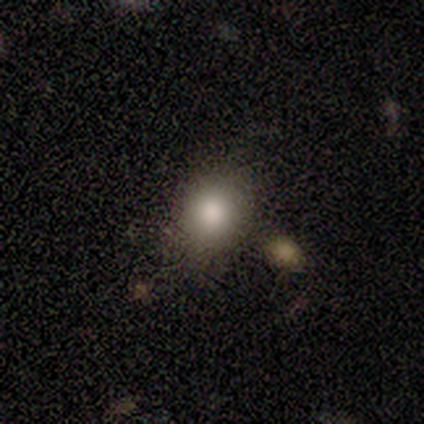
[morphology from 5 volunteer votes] Volunteers were most divided on "how rounded": in between: 67%, round: 33%, cigar-shaped: 0%. More confident: merging — none (100%); smooth or featured — smooth (60%).